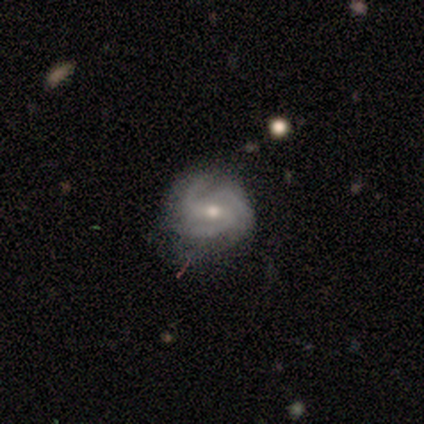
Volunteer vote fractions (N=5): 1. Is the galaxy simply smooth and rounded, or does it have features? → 100% featured or disk, 0% smooth, 0% star or artifact.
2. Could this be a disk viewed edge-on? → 100% no, 0% yes.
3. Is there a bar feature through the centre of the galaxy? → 60% weak, 40% no, 0% strong.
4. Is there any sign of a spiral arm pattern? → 100% yes, 0% no.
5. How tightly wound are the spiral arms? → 60% medium, 40% tight, 0% loose.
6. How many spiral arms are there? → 100% 3, 0% 1, 0% 2, 0% 4, 0% more than 4, 0% can't tell.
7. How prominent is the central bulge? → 60% small, 40% moderate, 0% dominant, 0% large, 0% none.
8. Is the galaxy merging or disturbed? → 60% minor disturbance, 40% none, 0% major disturbance, 0% merger.